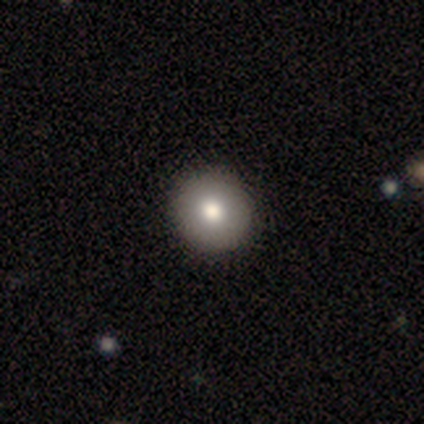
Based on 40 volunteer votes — A smooth galaxy with no disk features (82%) that is round (97%). Merging: none (77%).